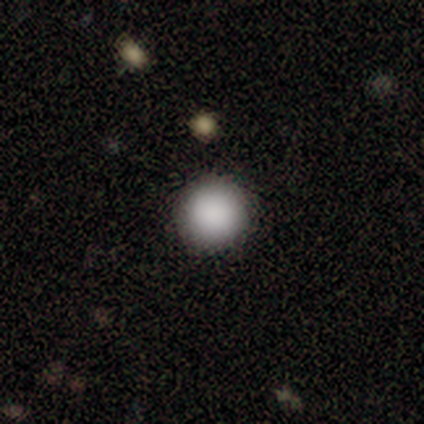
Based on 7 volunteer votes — smooth-or-featured: smooth: 100% | featured or disk: 0% | star or artifact: 0%
  how-rounded: round: 100% | in between: 0% | cigar-shaped: 0%
  merging: none: 100% | minor disturbance: 0% | major disturbance: 0% | merger: 0%